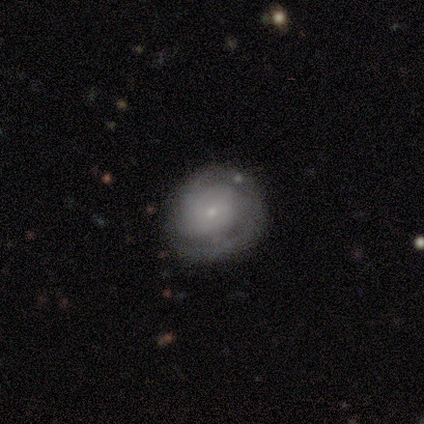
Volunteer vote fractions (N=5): Smooth or featured? featured or disk (60%)
Edge-on disk? no (67%)
Bar? no (100%)
Spiral arms? yes (100%)
Spiral winding? medium (50%, tied with loose)
Spiral arm count? 2 (100%)
Bulge size? small (100%)
Merging? none (60%)